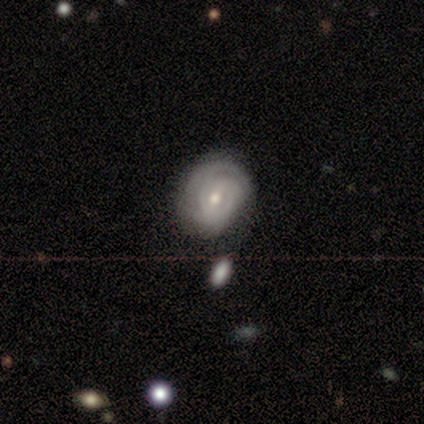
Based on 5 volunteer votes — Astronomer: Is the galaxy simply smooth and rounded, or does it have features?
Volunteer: featured or disk — 80%.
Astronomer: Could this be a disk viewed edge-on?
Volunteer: no — 100%.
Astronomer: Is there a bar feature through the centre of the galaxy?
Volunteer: weak — 50%, tied with no at 50%.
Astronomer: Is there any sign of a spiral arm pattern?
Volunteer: yes — 100%.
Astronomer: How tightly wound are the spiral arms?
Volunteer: tight — 75%.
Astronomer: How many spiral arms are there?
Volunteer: can't tell — 50%.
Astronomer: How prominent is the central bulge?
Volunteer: moderate — 100%.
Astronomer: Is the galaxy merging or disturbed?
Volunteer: minor disturbance — 60% (runner-up: none, 40%).